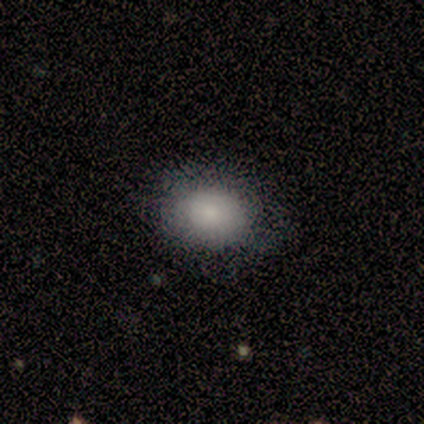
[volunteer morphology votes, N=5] smooth_or_featured: smooth (p=1.00)
how_rounded: round (p=0.60) [alt: in between p=0.40]
merging: none (p=0.80) [alt: minor disturbance p=0.20]